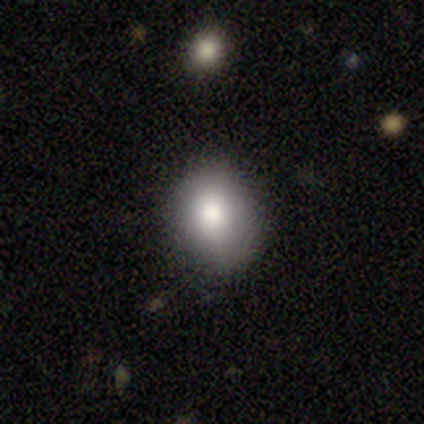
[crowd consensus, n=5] smooth-or-featured: smooth: 80% | featured or disk: 20% | star or artifact: 0%
  how-rounded: round: 100% | in between: 0% | cigar-shaped: 0%
  merging: none: 80% | major disturbance: 20% | minor disturbance: 0% | merger: 0%